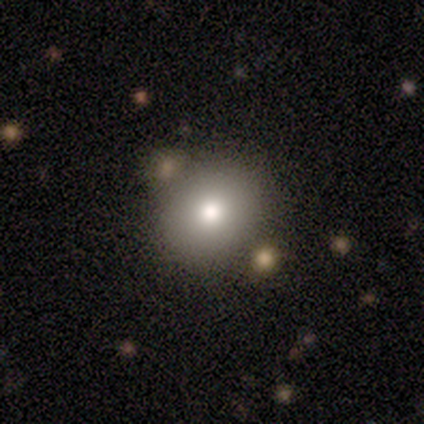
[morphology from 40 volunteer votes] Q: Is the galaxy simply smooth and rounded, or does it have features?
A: smooth — 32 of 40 (80%).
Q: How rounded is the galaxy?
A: round — 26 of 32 (81%).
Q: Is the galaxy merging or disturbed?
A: none — 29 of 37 (78%).